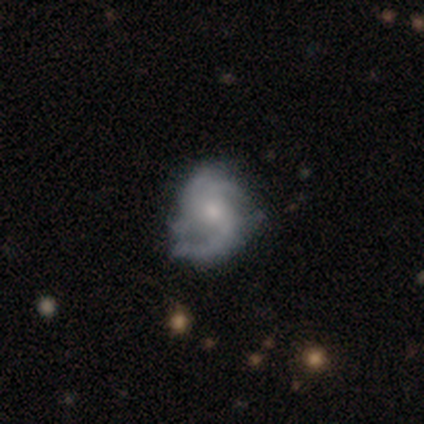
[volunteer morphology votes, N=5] featured or disk 80%, star or artifact 20%, smooth 0%. Down the decision tree: edge-on disk — no (100%); bar — no (50%); spiral arms — yes (100%); spiral arm count — 1 (25%, tied with 2, 3 and can't tell); spiral winding — tight (50%); bulge size — moderate (75%); merging — minor disturbance (75%).